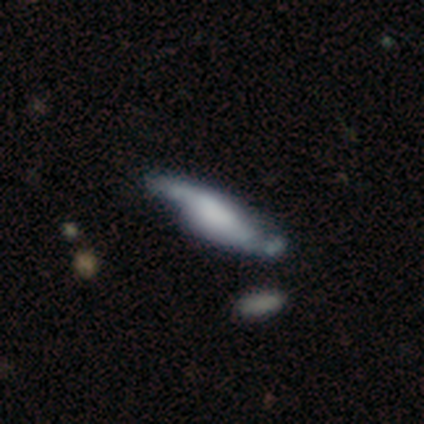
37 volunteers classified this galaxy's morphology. smooth-or-featured: featured or disk: 68% | smooth: 30% | star or artifact: 3%
  disk-edge-on: no: 64% | yes: 36%
    bar: no: 62% | weak: 31% | strong: 6%
    has-spiral-arms: yes: 62% | no: 38%
      spiral-winding: medium: 50% (tied) | loose: 50% (tied) | tight: 0%
      spiral-arm-count: 2: 80% | can't tell: 20% | 1: 0% | 3: 0% | 4: 0% | more than 4: 0%
    bulge-size: none: 50% | moderate: 19% | large: 12% | small: 12% | dominant: 6%
  merging: none: 36% | minor disturbance: 19% | merger: 14% | major disturbance: 6%